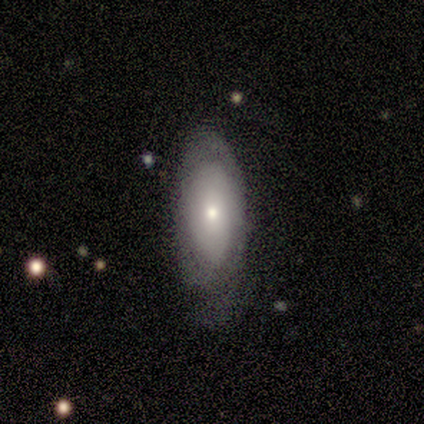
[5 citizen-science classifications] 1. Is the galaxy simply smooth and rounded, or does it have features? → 60% smooth, 40% featured or disk, 0% star or artifact.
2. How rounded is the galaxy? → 100% in between, 0% round, 0% cigar-shaped.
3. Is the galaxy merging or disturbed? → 60% none, 40% major disturbance, 0% minor disturbance, 0% merger.